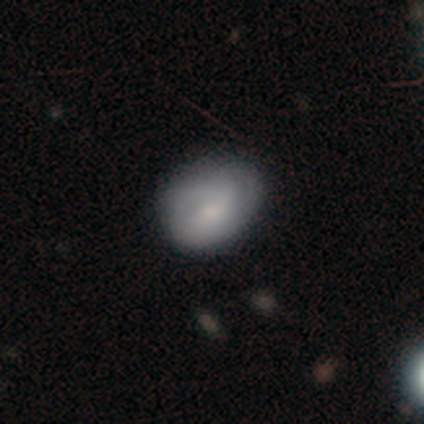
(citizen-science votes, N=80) Smooth or featured: smooth — 54% (featured or disk — 42%)
How rounded: in between — 51% (round — 49%)
Merging: none — 30% (minor disturbance — 17%)